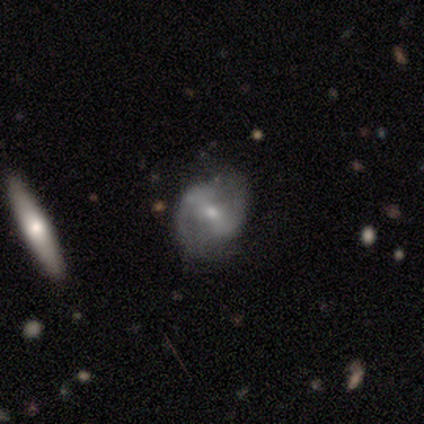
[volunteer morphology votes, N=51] Smooth or featured? featured or disk (82%)
Edge-on disk? no (98%)
Bar? strong (49%)
Spiral arms? yes (80%)
Spiral winding? medium (45%)
Spiral arm count? 2 (85%)
Bulge size? small (61%)
Merging? none (52%)